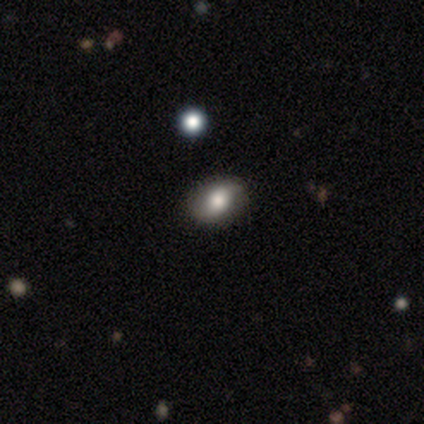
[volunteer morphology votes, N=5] featured or disk 60%, smooth 20%, star or artifact 20%. Down the decision tree: edge-on disk — no (100%); bar — weak (67%); spiral arms — no (67%); bulge size — large (67%); merging — none (75%).